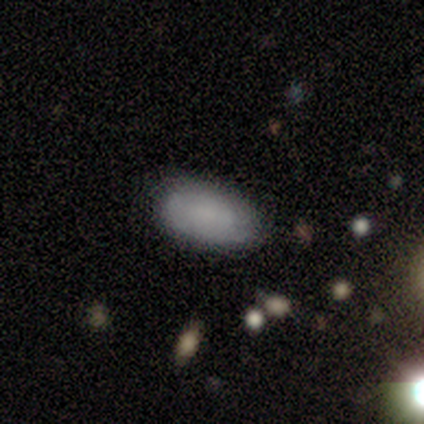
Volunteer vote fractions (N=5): Smooth or featured? 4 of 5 (80%) said smooth. How rounded? 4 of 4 (100%) said in between. Merging? 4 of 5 (80%) said none.